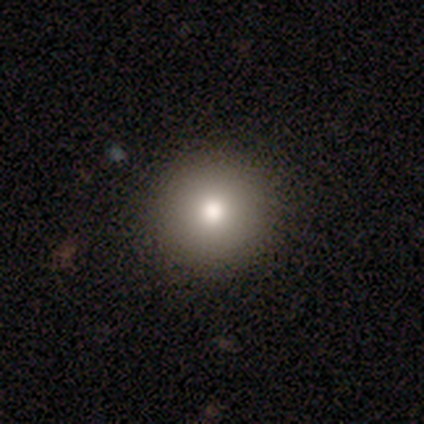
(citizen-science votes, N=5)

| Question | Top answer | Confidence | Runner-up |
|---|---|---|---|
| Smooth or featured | smooth | 100% | — |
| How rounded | round | 100% | — |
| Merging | none | 100% | — |